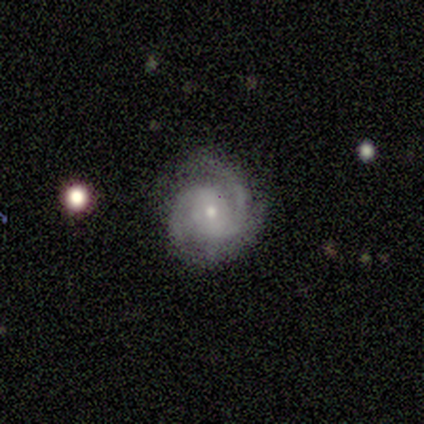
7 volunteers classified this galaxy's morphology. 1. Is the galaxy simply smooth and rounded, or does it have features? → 86% featured or disk, 14% smooth, 0% star or artifact.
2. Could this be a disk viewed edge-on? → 100% no, 0% yes.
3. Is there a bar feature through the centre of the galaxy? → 50% weak (tied), 50% no (tied), 0% strong.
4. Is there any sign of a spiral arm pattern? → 100% yes, 0% no.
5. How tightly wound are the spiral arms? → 50% tight (tied), 50% medium (tied), 0% loose.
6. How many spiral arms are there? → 67% 2, 33% 3, 0% 1, 0% 4, 0% more than 4, 0% can't tell.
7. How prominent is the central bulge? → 100% small, 0% dominant, 0% large, 0% moderate, 0% none.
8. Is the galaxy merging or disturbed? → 100% none, 0% minor disturbance, 0% major disturbance, 0% merger.